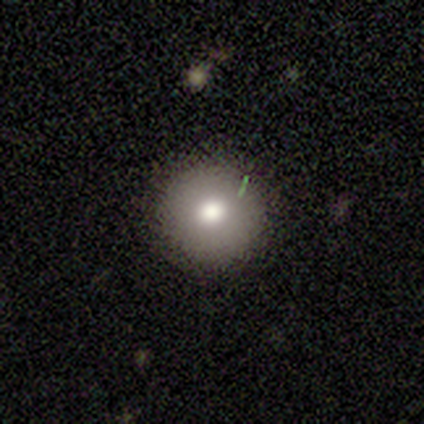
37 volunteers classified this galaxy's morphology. A smooth galaxy with no disk features (84%) that is round (94%). Merging: none (81%).